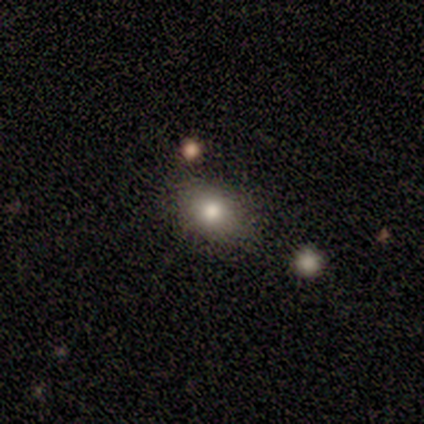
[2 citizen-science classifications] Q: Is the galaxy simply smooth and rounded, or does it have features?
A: smooth — 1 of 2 (50%, tied with star or artifact).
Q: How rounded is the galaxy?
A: round — 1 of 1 (100%).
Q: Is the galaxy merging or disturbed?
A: none — 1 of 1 (100%).